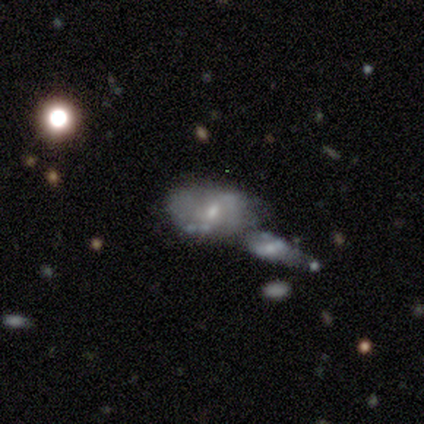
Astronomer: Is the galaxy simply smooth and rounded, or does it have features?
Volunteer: featured or disk — 67%.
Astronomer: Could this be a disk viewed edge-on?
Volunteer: no — 100%.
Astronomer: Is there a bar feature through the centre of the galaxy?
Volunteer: weak — 50%, tied with no at 50%.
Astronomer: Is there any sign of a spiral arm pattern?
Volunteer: yes — 50%, tied with no at 50%.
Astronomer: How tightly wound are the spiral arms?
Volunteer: medium — 100%.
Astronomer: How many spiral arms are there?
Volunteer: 2 — 100%.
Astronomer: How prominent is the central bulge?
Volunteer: small — 100%.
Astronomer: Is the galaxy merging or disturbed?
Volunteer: none — 33%, tied with minor disturbance and merger at 33%.